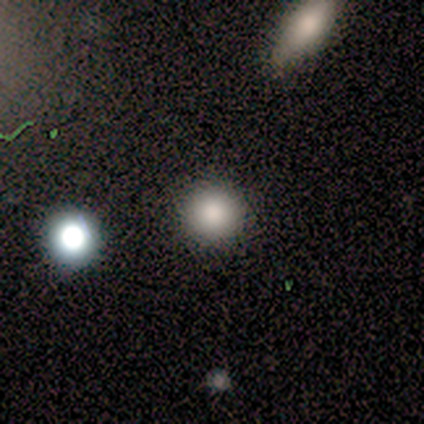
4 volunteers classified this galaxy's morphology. smooth 50%, featured or disk 25%, star or artifact 25%. Down the decision tree: how rounded — round (100%); merging — none (100%).